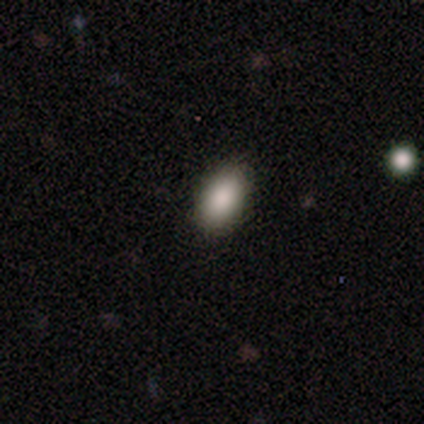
Smooth or featured?
  - smooth: 100% *
  - featured or disk: 0%
  - star or artifact: 0%
How rounded?
  - in between: 100% *
  - round: 0%
  - cigar-shaped: 0%
Merging?
  - none: 86% *
  - minor disturbance: 14%
  - major disturbance: 0%
  - merger: 0%